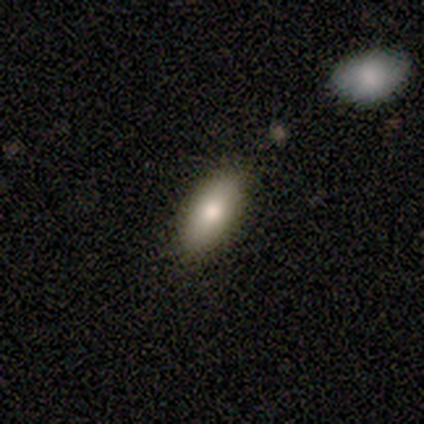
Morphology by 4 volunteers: Q: Smooth or featured?
A: smooth (50%); runner-up: featured or disk (25%)
Q: How rounded?
A: in between (100%)
Q: Merging?
A: none (67%); runner-up: minor disturbance (33%)